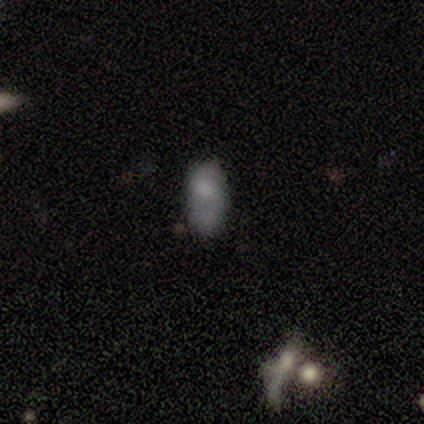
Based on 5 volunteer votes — Volunteers were most divided on "merging": minor disturbance: 40%, none: 20%, major disturbance: 20%, merger: 20%. More confident: smooth or featured — smooth (100%); how rounded — in between (100%).